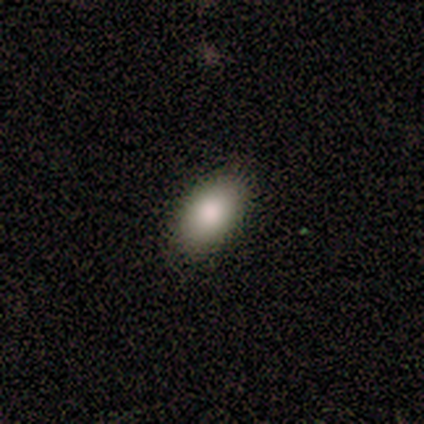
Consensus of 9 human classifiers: This is clearly a smooth galaxy (100%). How rounded: clearly in between (89%). Merging: clearly none (89%).